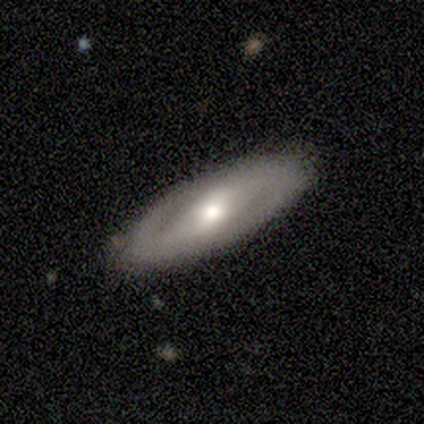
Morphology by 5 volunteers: smooth_or_featured: featured or disk (p=0.80) [alt: smooth p=0.20]
disk_edge_on: no (p=1.00)
bar: no (p=0.50) [alt: strong p=0.25]
has_spiral_arms: yes (p=1.00)
spiral_winding: loose (p=0.75) [alt: medium p=0.25]
spiral_arm_count: 2 (p=0.75) [alt: can't tell p=0.25]
bulge_size: moderate (p=0.75) [alt: small p=0.25]
merging: none (p=1.00)